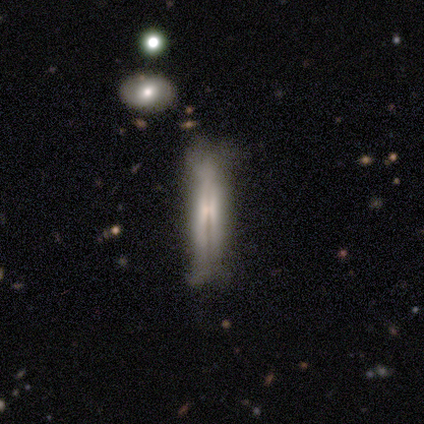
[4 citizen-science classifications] Smooth or featured?
  - featured or disk: 100% *
  - smooth: 0%
  - star or artifact: 0%
Edge-on disk?
  - yes: 75% *
  - no: 25%
Edge-on bulge?
  - boxy: 33% * (tied)
  - none: 33% * (tied)
  - rounded: 33% * (tied)
Merging?
  - none: 75% *
  - minor disturbance: 25%
  - major disturbance: 0%
  - merger: 0%